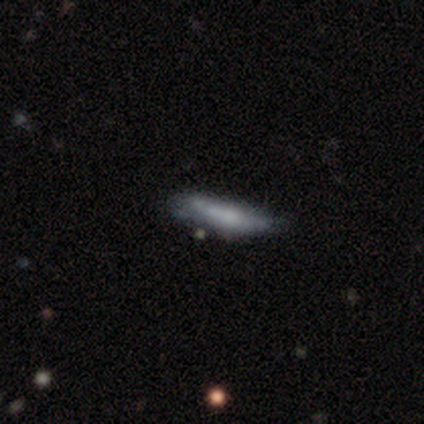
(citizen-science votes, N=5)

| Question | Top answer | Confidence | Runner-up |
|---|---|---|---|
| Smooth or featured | smooth | 60% | featured or disk (20%) |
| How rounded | cigar-shaped | 100% | — |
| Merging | none | 100% | — |